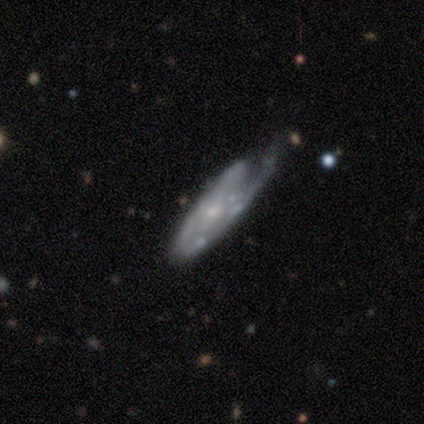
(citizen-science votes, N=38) Smooth or featured?
  - featured or disk: 87% *
  - smooth: 11%
  - star or artifact: 3%
Edge-on disk?
  - no: 85% *
  - yes: 15%
Bar?
  - no: 57% *
  - weak: 29%
  - strong: 14%
Spiral arms?
  - yes: 79% *
  - no: 21%
Spiral winding?
  - medium: 50% *
  - tight: 36%
  - loose: 14%
Spiral arm count?
  - 1: 50% *
  - can't tell: 32%
  - 2: 18%
  - 3: 0%
  - 4: 0%
  - more than 4: 0%
Bulge size?
  - small: 79% *
  - moderate: 11%
  - none: 11%
  - dominant: 0%
  - large: 0%
Merging?
  - none: 49% *
  - minor disturbance: 30%
  - major disturbance: 19%
  - merger: 3%